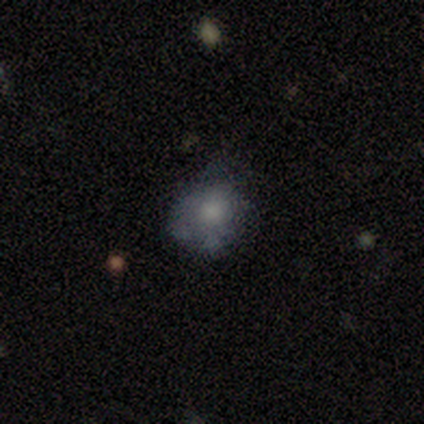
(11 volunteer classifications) Morphology: type=smooth (73%); roundness=round (50%, tied with in between); merging=none (64%).